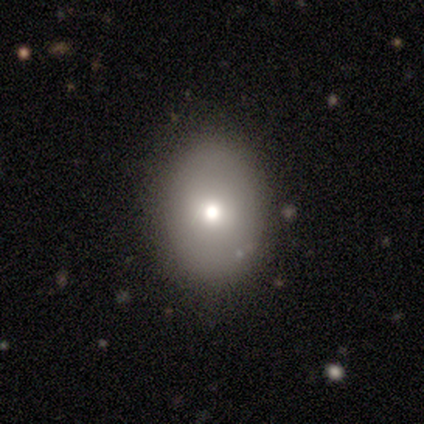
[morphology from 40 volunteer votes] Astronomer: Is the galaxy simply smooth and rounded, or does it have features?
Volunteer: smooth — 75%.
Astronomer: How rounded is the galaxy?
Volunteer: in between — 70%.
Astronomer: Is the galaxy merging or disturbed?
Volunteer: none — 82%.